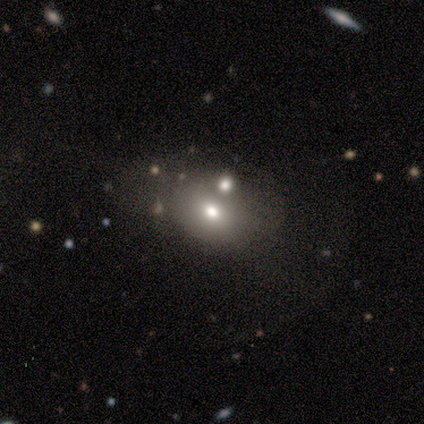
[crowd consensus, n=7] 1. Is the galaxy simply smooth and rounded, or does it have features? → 86% smooth, 14% featured or disk, 0% star or artifact.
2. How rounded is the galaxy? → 67% round, 33% in between, 0% cigar-shaped.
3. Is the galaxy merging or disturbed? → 71% none, 14% minor disturbance, 14% major disturbance, 0% merger.